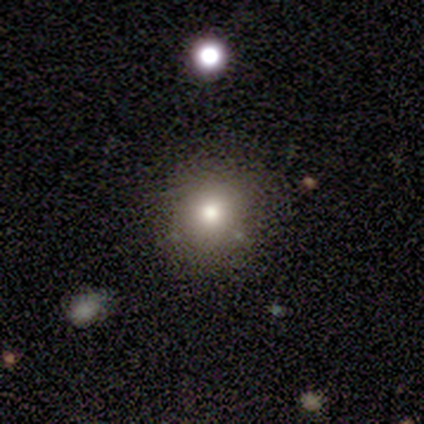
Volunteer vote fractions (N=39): A smooth galaxy with no disk features (74%) that is round (86%).

Vote fractions:
- Smooth or featured? smooth: 74% / star or artifact: 15% / featured or disk: 10%
- How rounded? round: 86% / in between: 14% / cigar-shaped: 0%
- Merging? none: 88% / major disturbance: 6% / merger: 6% / minor disturbance: 0%